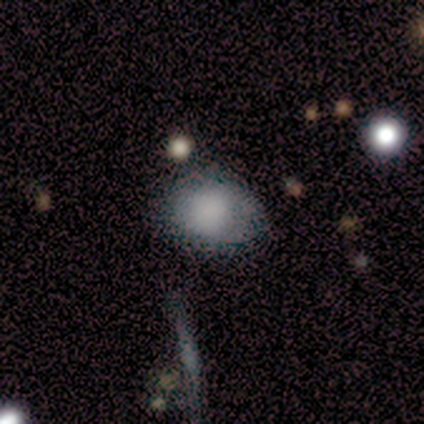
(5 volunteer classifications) A smooth galaxy with no disk features (80%) that is round (50%, tied with in between).

Vote fractions:
- Smooth or featured? smooth: 80% / featured or disk: 20% / star or artifact: 0%
- How rounded? round: 50% (tied) / in between: 50% (tied) / cigar-shaped: 0%
- Merging? none: 60% / minor disturbance: 40% / major disturbance: 0% / merger: 0%